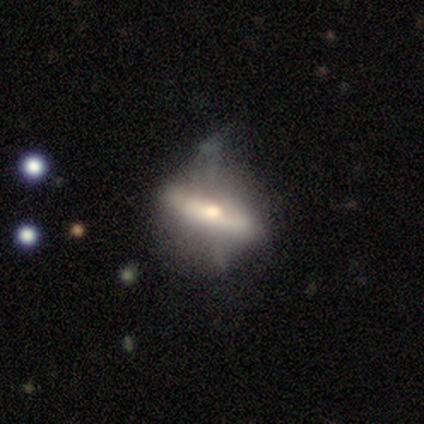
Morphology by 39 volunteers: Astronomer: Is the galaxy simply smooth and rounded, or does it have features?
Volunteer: featured or disk — 85%.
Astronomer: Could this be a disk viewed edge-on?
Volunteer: no — 52% (runner-up: yes, 48%).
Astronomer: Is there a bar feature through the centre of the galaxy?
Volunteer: no — 82%.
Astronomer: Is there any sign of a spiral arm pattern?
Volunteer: no — 76%.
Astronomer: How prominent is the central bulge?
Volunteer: moderate — 47% (runner-up: small, 35%).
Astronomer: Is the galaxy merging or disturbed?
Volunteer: major disturbance — 44% (runner-up: none, 33%).